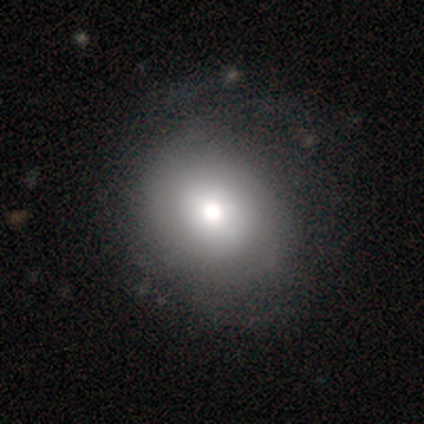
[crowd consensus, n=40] Smooth or featured? 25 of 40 (62%) said smooth. How rounded? 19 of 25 (76%) said round. Merging? 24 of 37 (65%) said none.